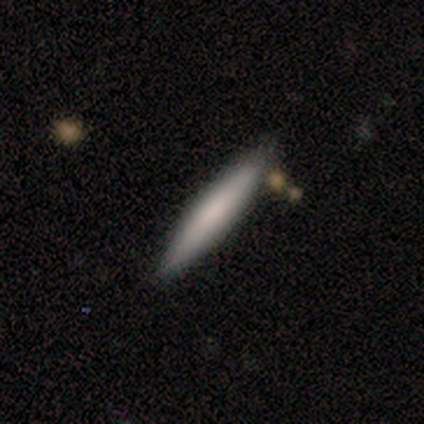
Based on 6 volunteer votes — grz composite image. It shows a smooth galaxy with no disk features (50%) that is cigar-shaped (100%). Merging: none (100%).